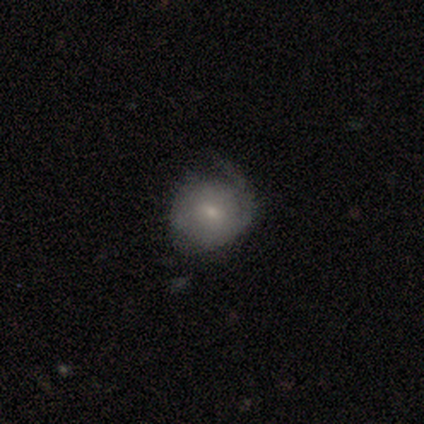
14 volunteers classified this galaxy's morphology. Overall: smooth (50%, tied with featured or disk). How rounded: round (100%). Merging: minor disturbance (50%; none 29%).